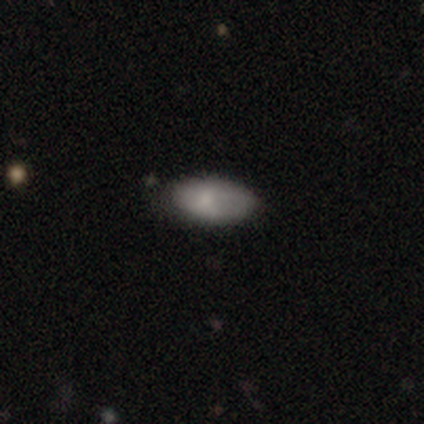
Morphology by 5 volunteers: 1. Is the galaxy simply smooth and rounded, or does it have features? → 40% smooth (tied), 40% featured or disk (tied), 20% star or artifact.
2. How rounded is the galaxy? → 100% in between, 0% round, 0% cigar-shaped.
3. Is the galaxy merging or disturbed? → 100% none, 0% minor disturbance, 0% major disturbance, 0% merger.